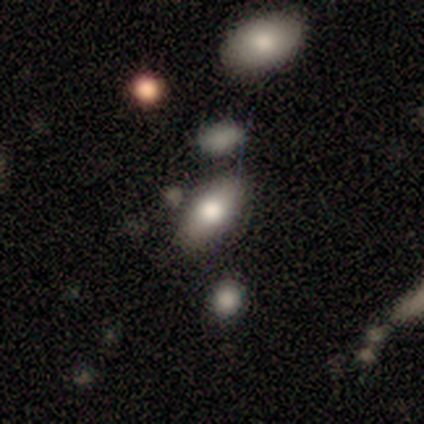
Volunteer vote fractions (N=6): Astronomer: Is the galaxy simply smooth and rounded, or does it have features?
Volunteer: smooth — 100%.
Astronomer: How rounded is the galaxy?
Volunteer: in between — 100%.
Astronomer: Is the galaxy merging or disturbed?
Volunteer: none — 100%.